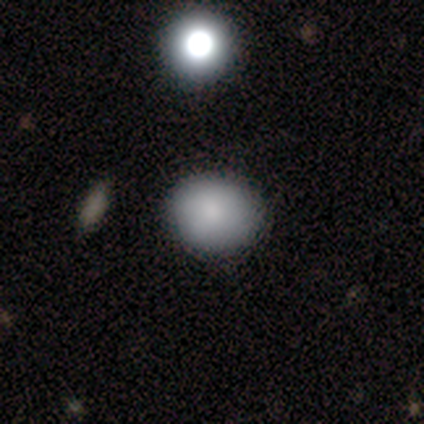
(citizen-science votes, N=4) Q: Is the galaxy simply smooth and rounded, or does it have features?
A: smooth — 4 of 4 (100%).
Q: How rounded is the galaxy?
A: in between — 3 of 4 (75%).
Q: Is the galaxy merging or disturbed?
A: none — 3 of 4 (75%).